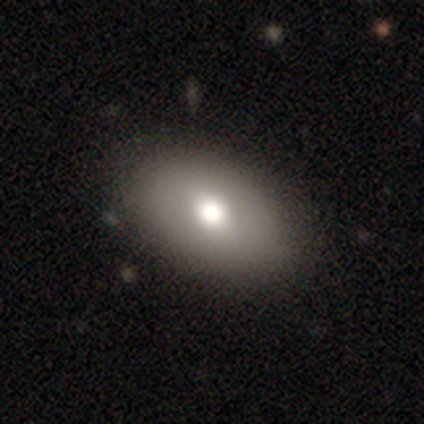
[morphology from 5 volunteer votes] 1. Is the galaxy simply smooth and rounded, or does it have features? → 60% smooth, 40% featured or disk, 0% star or artifact.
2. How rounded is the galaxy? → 100% in between, 0% round, 0% cigar-shaped.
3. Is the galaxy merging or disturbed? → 100% none, 0% minor disturbance, 0% major disturbance, 0% merger.